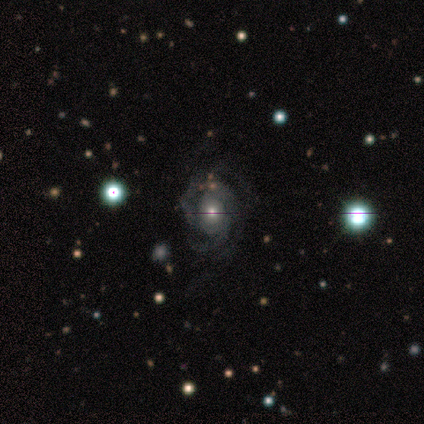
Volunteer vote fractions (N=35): smooth_or_featured: featured or disk (p=0.77) [alt: smooth p=0.11]
disk_edge_on: no (p=1.00)
bar: no (p=0.93) [alt: strong p=0.04]
has_spiral_arms: yes (p=0.89) [alt: no p=0.11]
spiral_winding: tight (p=0.54) [alt: medium p=0.33]
spiral_arm_count: 2 (p=0.33) [alt: 4 p=0.29]
bulge_size: small (p=0.52) [alt: moderate p=0.41]
merging: none (p=0.68) [alt: major disturbance p=0.16]